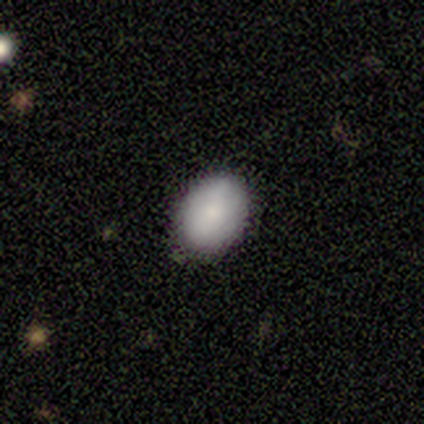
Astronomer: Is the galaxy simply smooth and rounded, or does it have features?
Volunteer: smooth — 100%.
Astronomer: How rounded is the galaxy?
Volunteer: in between — 80%.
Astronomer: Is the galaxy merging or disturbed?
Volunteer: none — 100%.